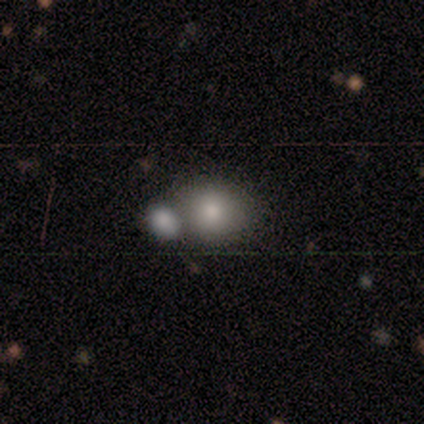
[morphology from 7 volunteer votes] smooth-or-featured: smooth: 100% | featured or disk: 0% | star or artifact: 0%
  how-rounded: round: 86% | in between: 14% | cigar-shaped: 0%
  merging: none: 57% | merger: 29% | minor disturbance: 14% | major disturbance: 0%